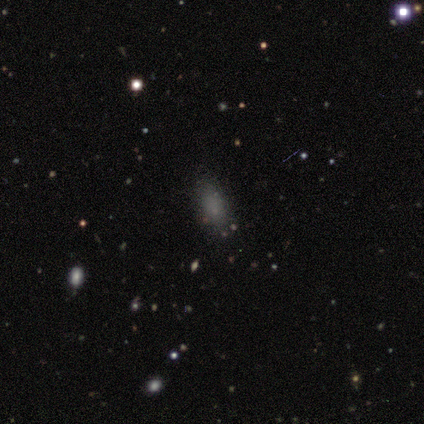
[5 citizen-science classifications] Smooth or featured? smooth (80%)
How rounded? in between (100%)
Merging? none (75%)